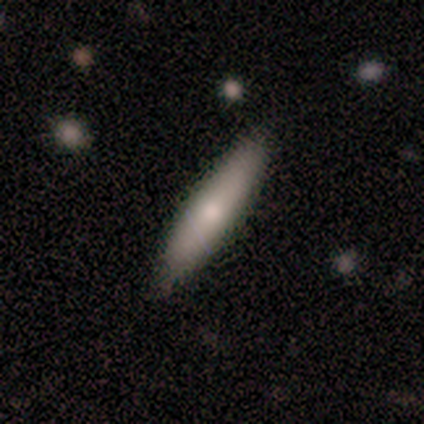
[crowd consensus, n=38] Smooth or featured?
  - smooth: 66% *
  - featured or disk: 26%
  - star or artifact: 8%
How rounded?
  - cigar-shaped: 80% *
  - in between: 16%
  - round: 4%
Merging?
  - none: 83% *
  - minor disturbance: 9%
  - major disturbance: 9%
  - merger: 0%